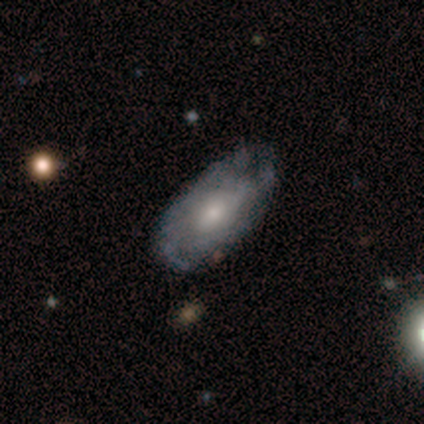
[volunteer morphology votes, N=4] This is likely a smooth galaxy (75%). How rounded: likely in between (67%). Merging: possibly minor disturbance (50%).